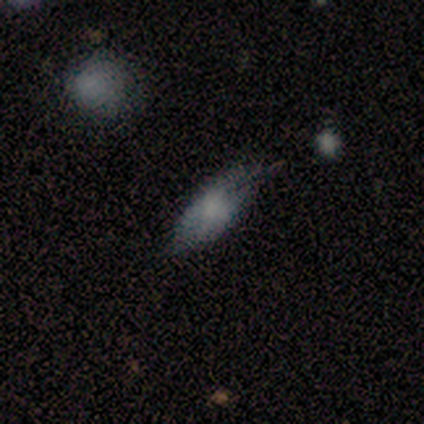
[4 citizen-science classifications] Volunteers were most divided on "how rounded": in between: 67%, cigar-shaped: 33%, round: 0%. More confident: smooth or featured — smooth (75%); merging — none (67%).